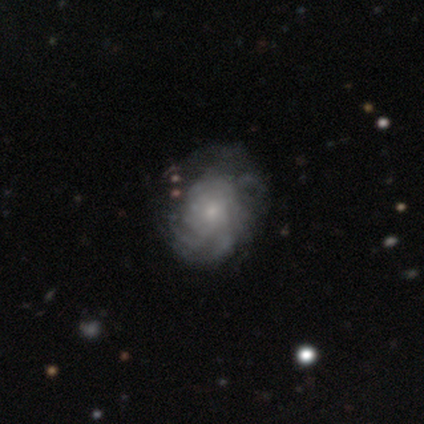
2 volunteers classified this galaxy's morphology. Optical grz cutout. It shows a smooth galaxy with no disk features (50%, tied with featured or disk) that is round (100%). Merging: none (100%).